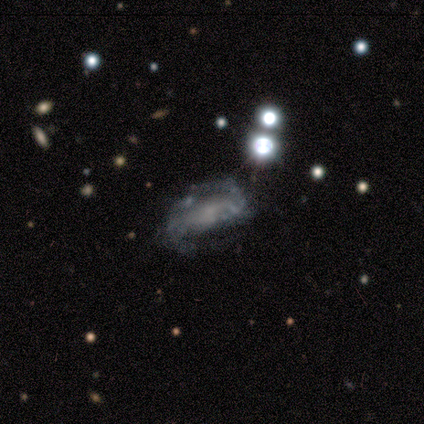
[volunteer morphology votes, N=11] A featured or disk galaxy (64%) with no bar (43%), 2 (67%) medium (83%) spiral arms (86%) and no central bulge (71%).

Vote fractions:
- Smooth or featured? featured or disk: 64% / smooth: 36% / star or artifact: 0%
- Edge-on disk? no: 100% / yes: 0%
- Bar? no: 43% / strong: 29% / weak: 29%
- Spiral arms? yes: 86% / no: 14%
- Spiral winding? medium: 83% / loose: 17% / tight: 0%
- Spiral arm count? 2: 67% / can't tell: 33% / 1: 0% / 3: 0% / 4: 0% / more than 4: 0%
- Bulge size? none: 71% / moderate: 14% / small: 14% / dominant: 0% / large: 0%
- Merging? none: 45% / minor disturbance: 27% / major disturbance: 18% / merger: 9%